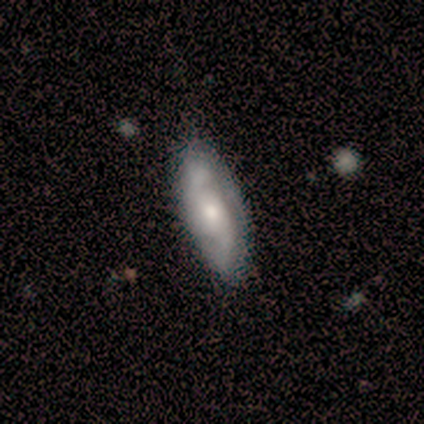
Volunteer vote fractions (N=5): smooth-or-featured: featured or disk: 80% | smooth: 20% | star or artifact: 0%
  disk-edge-on: yes: 50% (tied) | no: 50% (tied)
    edge-on-bulge: rounded: 100% | boxy: 0% | none: 0%
  merging: none: 100% | minor disturbance: 0% | major disturbance: 0% | merger: 0%